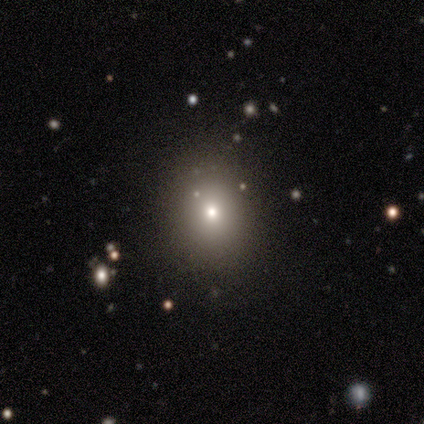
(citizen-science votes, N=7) Q: Smooth or featured?
A: smooth (71%); runner-up: star or artifact (29%)
Q: How rounded?
A: round (60%); runner-up: in between (40%)
Q: Merging?
A: none (60%); runner-up: minor disturbance (40%)